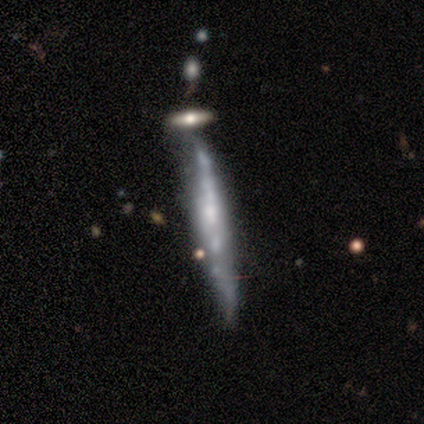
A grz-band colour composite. It shows a featured or disk galaxy (60%) viewed edge-on (100%) with a rounded central bulge (67%). Merging: minor disturbance (67%).